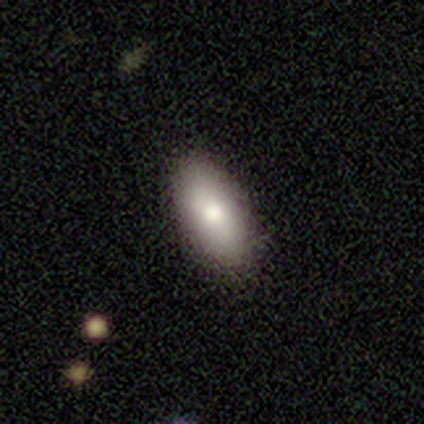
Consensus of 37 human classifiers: smooth_or_featured: smooth (p=0.89) [alt: featured or disk p=0.08]
how_rounded: in between (p=0.82) [alt: round p=0.09]
merging: none (p=0.94) [alt: minor disturbance p=0.06]